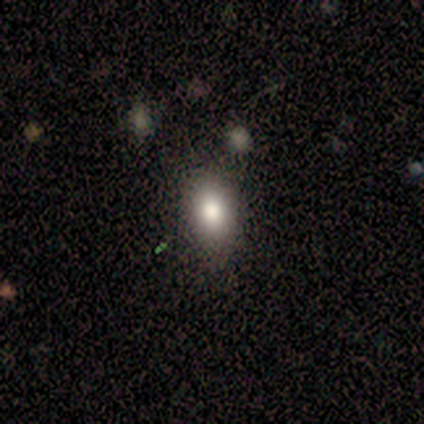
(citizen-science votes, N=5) Morphology: type=smooth (80%); roundness=in between (75%); merging=none (50%).